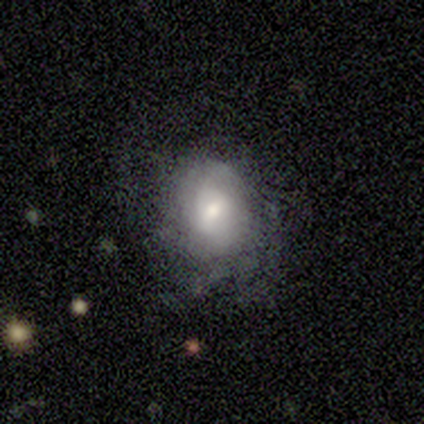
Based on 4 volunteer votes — Smooth or featured? smooth (75%)
How rounded? round (67%)
Merging? none (100%)